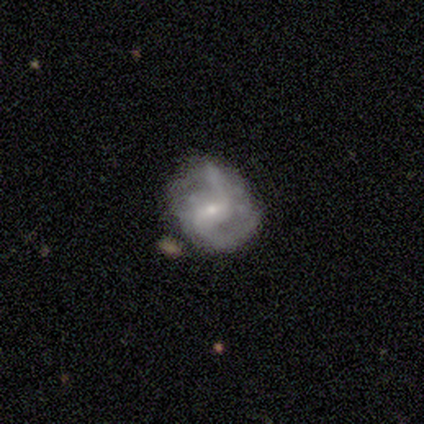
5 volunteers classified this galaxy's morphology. Smooth or featured?
  - featured or disk: 100% *
  - smooth: 0%
  - star or artifact: 0%
Edge-on disk?
  - no: 100% *
  - yes: 0%
Bar?
  - weak: 60% *
  - no: 40%
  - strong: 0%
Spiral arms?
  - yes: 80% *
  - no: 20%
Spiral winding?
  - medium: 75% *
  - loose: 25%
  - tight: 0%
Spiral arm count?
  - 2: 100% *
  - 1: 0%
  - 3: 0%
  - 4: 0%
  - more than 4: 0%
  - can't tell: 0%
Bulge size?
  - small: 80% *
  - moderate: 20%
  - dominant: 0%
  - large: 0%
  - none: 0%
Merging?
  - none: 60% *
  - minor disturbance: 40%
  - major disturbance: 0%
  - merger: 0%